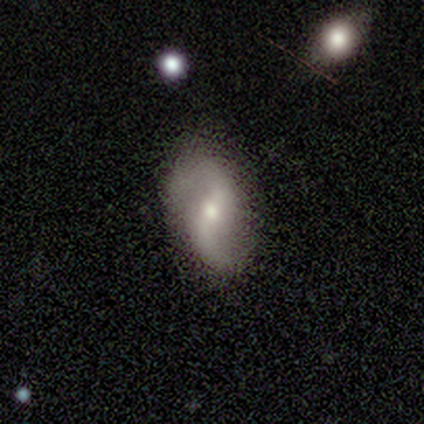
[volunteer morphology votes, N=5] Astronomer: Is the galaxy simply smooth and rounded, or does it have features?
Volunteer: featured or disk — 100%.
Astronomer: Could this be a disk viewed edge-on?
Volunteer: no — 80%.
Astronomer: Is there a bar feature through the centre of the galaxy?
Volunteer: weak — 100%.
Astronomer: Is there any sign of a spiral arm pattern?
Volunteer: yes — 75%.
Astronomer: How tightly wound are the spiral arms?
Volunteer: loose — 67%.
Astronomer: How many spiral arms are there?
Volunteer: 2 — 100%.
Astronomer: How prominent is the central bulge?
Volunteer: small — 50%.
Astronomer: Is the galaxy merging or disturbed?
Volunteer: none — 80%.